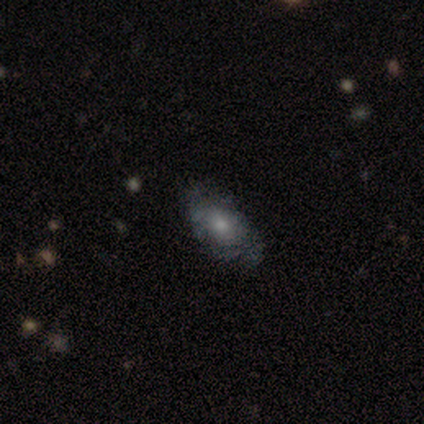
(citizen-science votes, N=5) Smooth or featured: smooth — 40% (tied with featured or disk — 40%)
How rounded: in between — 100%
Merging: none — 75% (major disturbance — 25%)